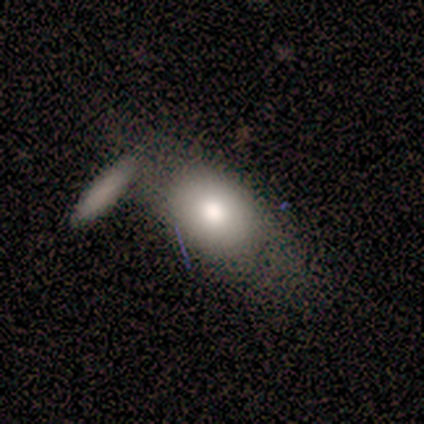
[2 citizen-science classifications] Overall: smooth (50%, tied with featured or disk). How rounded: in between (100%). Merging: none (100%).